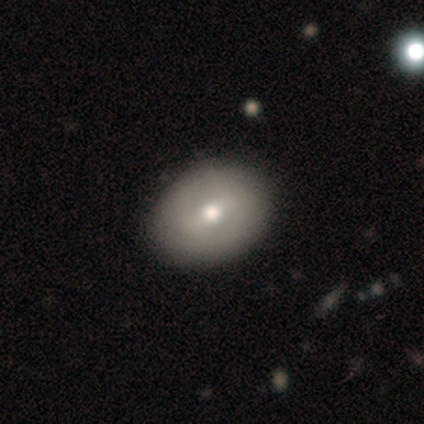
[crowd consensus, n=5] Smooth or featured? 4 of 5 (80%) said smooth. How rounded? 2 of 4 (50%, tied with in between) said round. Merging? 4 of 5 (80%) said none.